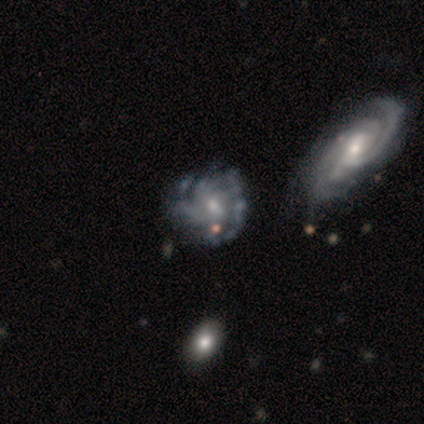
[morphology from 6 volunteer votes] smooth_or_featured: featured or disk (p=0.67) [alt: star or artifact p=0.33]
disk_edge_on: no (p=1.00)
bar: no (p=0.75) [alt: weak p=0.25]
has_spiral_arms: no (p=0.75) [alt: yes p=0.25]
bulge_size: moderate (p=0.50) [tied with: small p=0.50]
merging: merger (p=0.50) [alt: minor disturbance p=0.25]